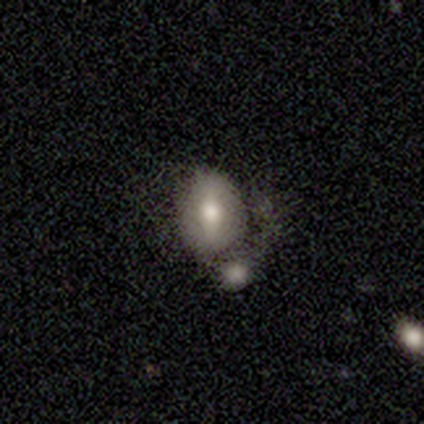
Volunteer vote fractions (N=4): Q: Smooth or featured?
A: smooth (75%); runner-up: featured or disk (25%)
Q: How rounded?
A: in between (67%); runner-up: round (33%)
Q: Merging?
A: merger (75%); runner-up: none (25%)